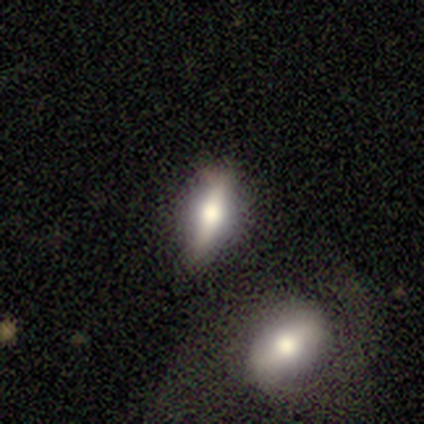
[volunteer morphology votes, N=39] smooth_or_featured: smooth (p=0.54) [alt: featured or disk p=0.44]
how_rounded: in between (p=0.62) [alt: cigar-shaped p=0.33]
merging: none (p=0.58) [alt: minor disturbance p=0.24]